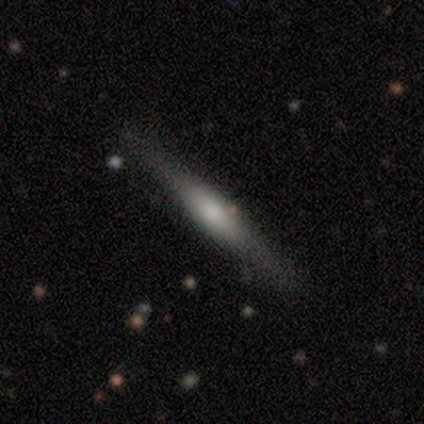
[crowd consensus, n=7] Q: Smooth or featured?
A: featured or disk (71%); runner-up: smooth (29%)
Q: Edge-on disk?
A: yes (100%)
Q: Edge-on bulge?
A: rounded (100%)
Q: Merging?
A: none (86%); runner-up: minor disturbance (14%)